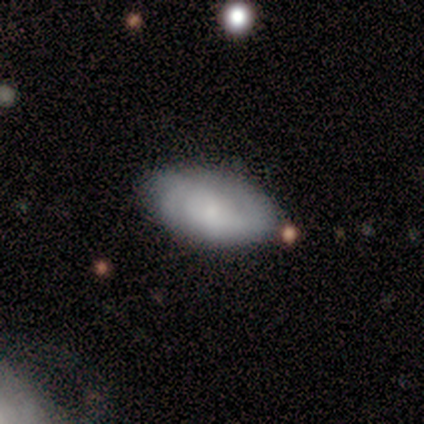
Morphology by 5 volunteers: smooth_or_featured: smooth (p=0.60) [alt: featured or disk p=0.40]
how_rounded: in between (p=1.00)
merging: none (p=0.80) [alt: minor disturbance p=0.20]